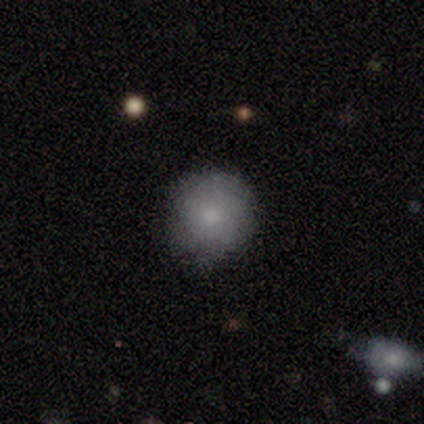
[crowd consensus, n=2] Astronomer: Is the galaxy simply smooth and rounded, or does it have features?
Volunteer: smooth — 100%.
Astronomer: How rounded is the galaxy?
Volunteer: round — 100%.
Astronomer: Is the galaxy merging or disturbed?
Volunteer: none — 100%.